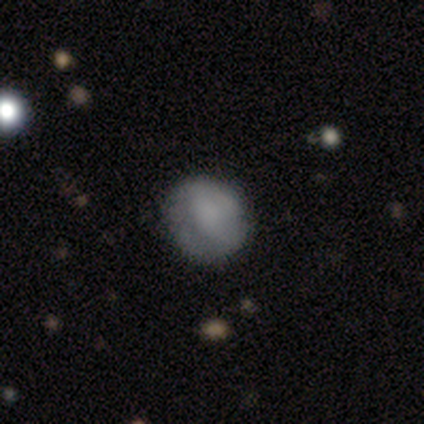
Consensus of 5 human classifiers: Smooth or featured? smooth (100%)
How rounded? round (60%)
Merging? none (80%)